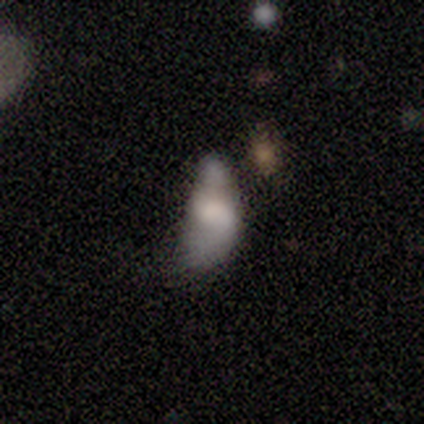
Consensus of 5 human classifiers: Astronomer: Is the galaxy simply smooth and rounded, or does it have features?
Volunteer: smooth — 60% (runner-up: featured or disk, 40%).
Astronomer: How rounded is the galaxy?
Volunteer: in between — 100%.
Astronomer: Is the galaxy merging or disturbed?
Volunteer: none — 40%, tied with minor disturbance at 40%.